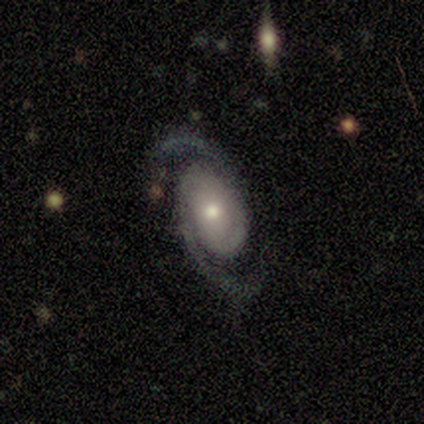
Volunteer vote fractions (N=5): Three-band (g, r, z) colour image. It shows a featured or disk galaxy (100%) with no bar (80%), 2 (100%) medium (80%) spiral arms (100%) and a small central bulge (80%). Merging: none (100%).